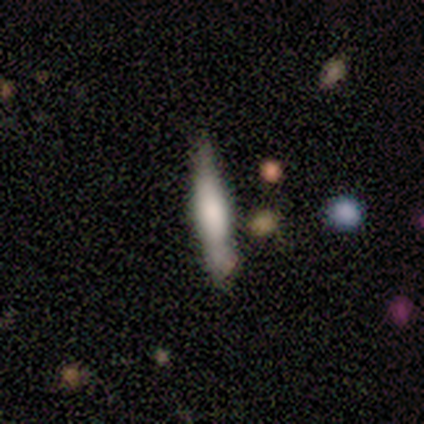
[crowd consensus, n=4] Volunteers were most divided on "edge-on bulge" (2-way tie): boxy: 50%, rounded: 50%, none: 0%. More confident: smooth or featured — featured or disk (100%); edge-on disk — yes (100%); merging — none (75%).